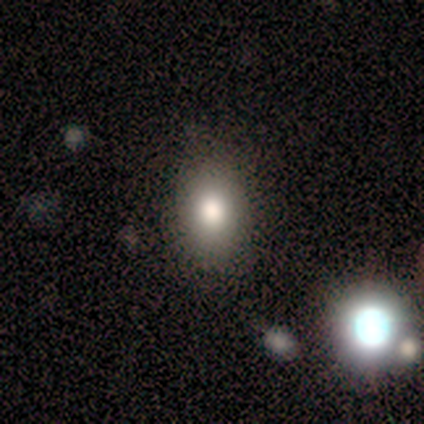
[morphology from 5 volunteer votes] Volunteers were most divided on "smooth or featured": smooth: 60%, star or artifact: 40%, featured or disk: 0%. More confident: how rounded — in between (67%); merging — none (67%).